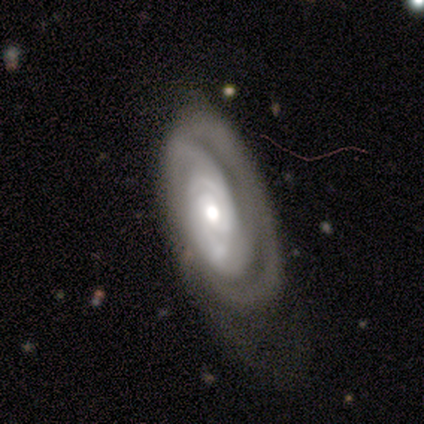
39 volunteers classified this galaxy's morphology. Smooth or featured? 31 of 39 (79%) said featured or disk. Edge-on disk? 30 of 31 (97%) said no. Bar? 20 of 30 (67%) said no. Spiral arms? 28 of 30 (93%) said yes. Spiral winding? 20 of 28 (71%) said tight. Spiral arm count? 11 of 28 (39%, tied with can't tell) said 2. Bulge size? 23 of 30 (77%) said moderate. Merging? 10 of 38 (26%) said minor disturbance.